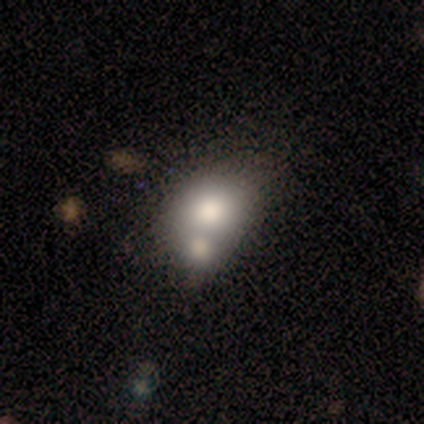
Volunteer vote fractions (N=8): Smooth or featured? 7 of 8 (88%) said smooth. How rounded? 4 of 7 (57%) said round. Merging? 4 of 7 (57%) said none.